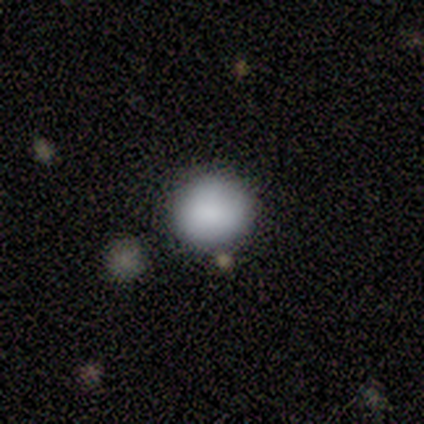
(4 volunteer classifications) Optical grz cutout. It shows a smooth galaxy with no disk features (75%) that is round (100%). Merging: none (100%).